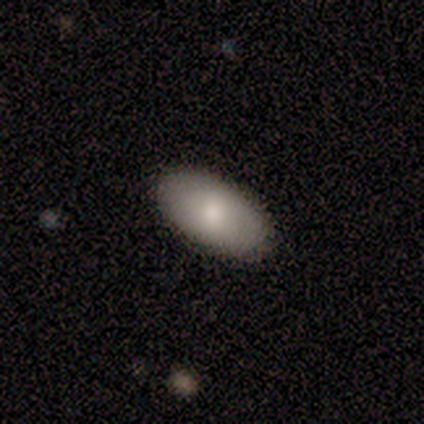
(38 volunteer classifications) This appears to be a smooth galaxy with no disk features (71%) that is in between round and cigar-shaped (93%). Merging: none (94%).